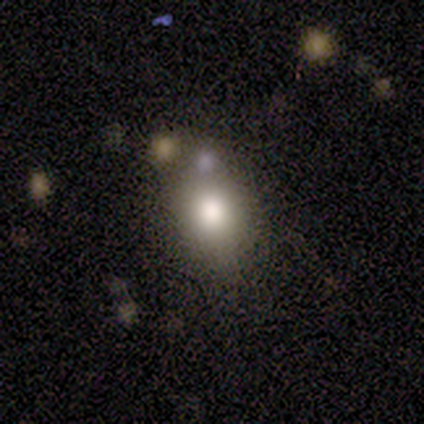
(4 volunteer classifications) Morphology: type=smooth (50%, tied with featured or disk); roundness=in between (100%); merging=minor disturbance (50%).